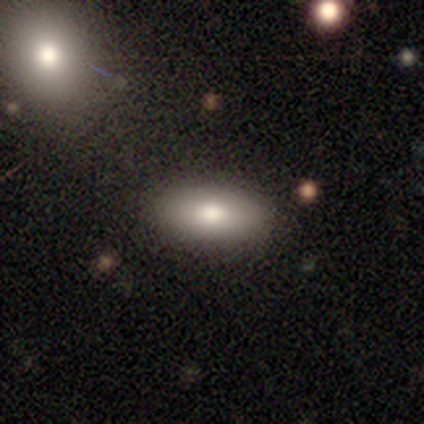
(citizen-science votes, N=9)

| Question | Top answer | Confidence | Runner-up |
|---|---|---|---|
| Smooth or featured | smooth | 89% | star or artifact (11%) |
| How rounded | in between | 88% | cigar-shaped (12%) |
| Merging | none | 88% | minor disturbance (12%) |